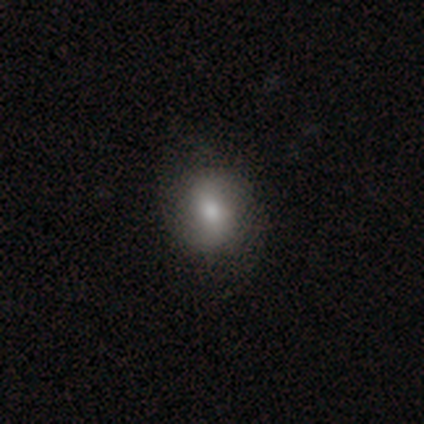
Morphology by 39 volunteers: Overall: smooth (62%; featured or disk 26%). How rounded: round (58%; in between 42%). Merging: none (79%).